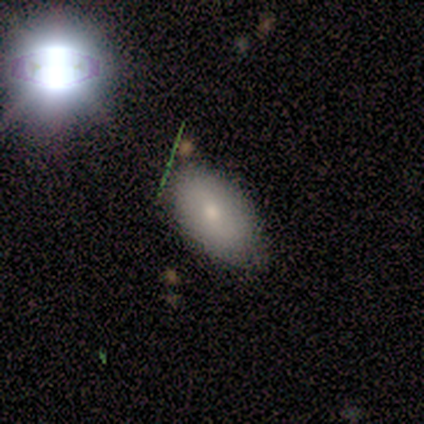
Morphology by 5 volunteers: Q: Smooth or featured?
A: smooth (80%); runner-up: featured or disk (20%)
Q: How rounded?
A: in between (100%)
Q: Merging?
A: none (60%); runner-up: minor disturbance (20%)